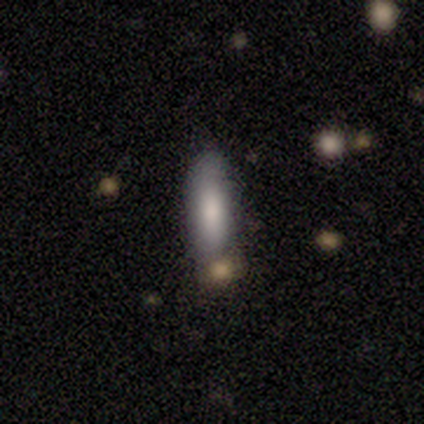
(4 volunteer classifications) This appears to be a smooth galaxy with no disk features (75%) that is in between round and cigar-shaped (67%). Merging: merger (50%).